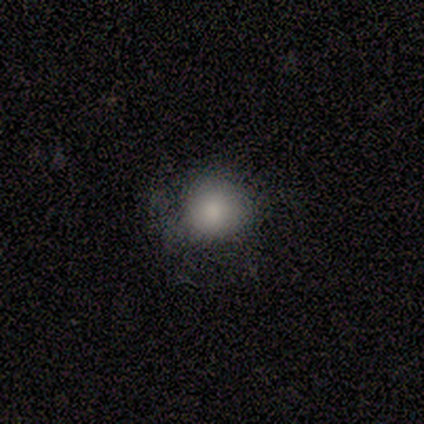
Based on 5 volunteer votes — smooth_or_featured: featured or disk (p=0.60) [alt: smooth p=0.20]
disk_edge_on: no (p=1.00)
bar: no (p=1.00)
has_spiral_arms: no (p=1.00)
bulge_size: none (p=0.67) [alt: moderate p=0.33]
merging: none (p=1.00)